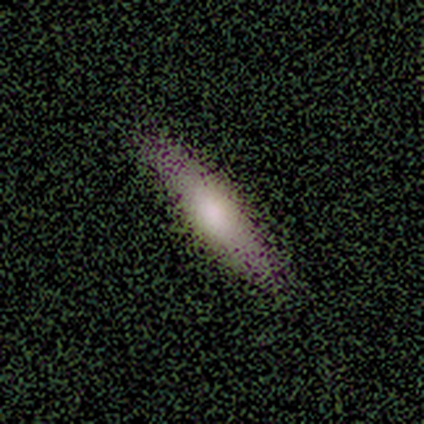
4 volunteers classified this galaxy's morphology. smooth_or_featured: smooth (p=0.50) [tied with: featured or disk p=0.50]
how_rounded: cigar-shaped (p=1.00)
merging: none (p=0.75) [alt: minor disturbance p=0.25]